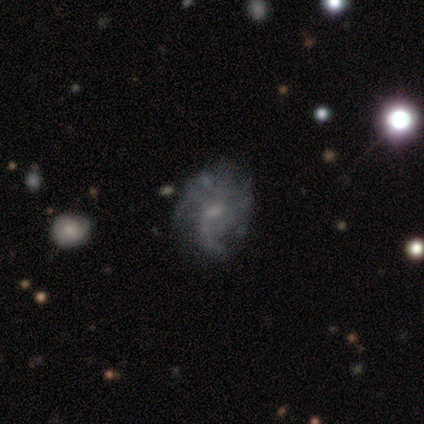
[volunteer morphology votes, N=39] Q: Smooth or featured?
A: featured or disk (72%); runner-up: smooth (18%)
Q: Edge-on disk?
A: no (100%)
Q: Bar?
A: weak (54%); runner-up: no (46%)
Q: Spiral arms?
A: yes (75%); runner-up: no (25%)
Q: Spiral winding?
A: loose (43%); runner-up: tight (29%)
Q: Spiral arm count?
A: can't tell (33%); runner-up: 2 (29%)
Q: Bulge size?
A: small (50%); runner-up: none (29%)
Q: Merging?
A: none (49%); runner-up: major disturbance (26%)